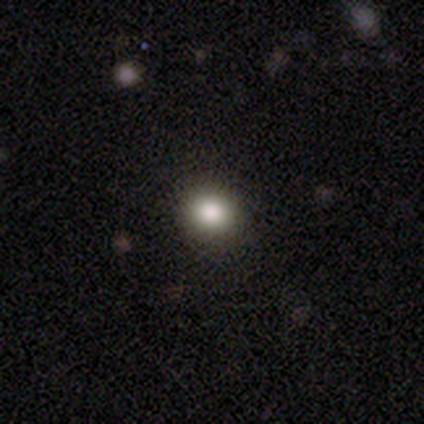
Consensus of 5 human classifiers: smooth 80%, star or artifact 20%, featured or disk 0%. Down the decision tree: how rounded — round (100%); merging — none (100%).